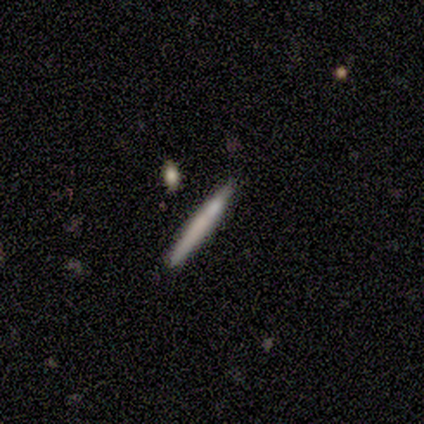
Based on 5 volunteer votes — This appears to be a smooth galaxy with no disk features (80%) that is cigar-shaped (100%). Merging: none (100%).